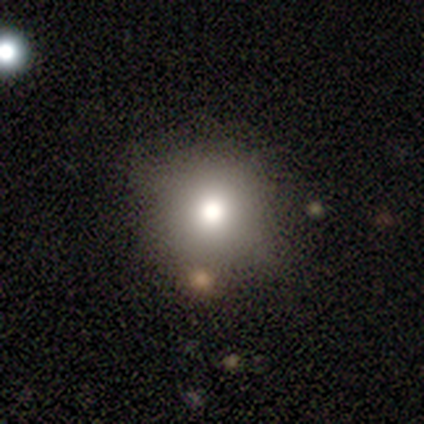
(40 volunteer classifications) Smooth or featured?
  - smooth: 78% *
  - featured or disk: 15%
  - star or artifact: 8%
How rounded?
  - round: 94% *
  - in between: 6%
  - cigar-shaped: 0%
Merging?
  - none: 51% *
  - minor disturbance: 19%
  - major disturbance: 3%
  - merger: 3%